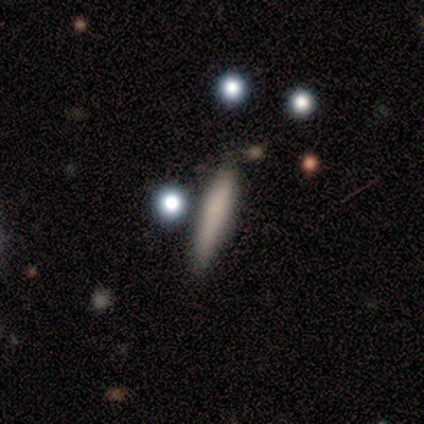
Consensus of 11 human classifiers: Overall: smooth (82%). How rounded: cigar-shaped (100%). Merging: none (70%).